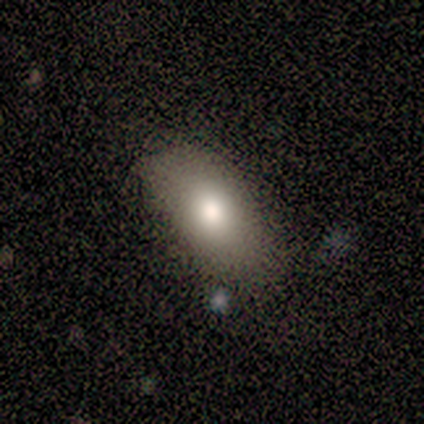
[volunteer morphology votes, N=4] smooth_or_featured: smooth (p=1.00)
how_rounded: in between (p=1.00)
merging: none (p=0.75) [alt: minor disturbance p=0.25]